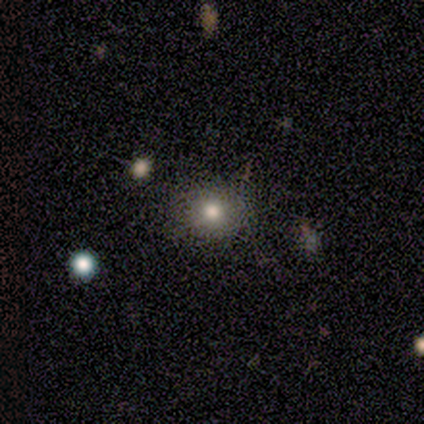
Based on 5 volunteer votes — smooth 80%, star or artifact 20%, featured or disk 0%. Down the decision tree: how rounded — round (100%); merging — none (100%).